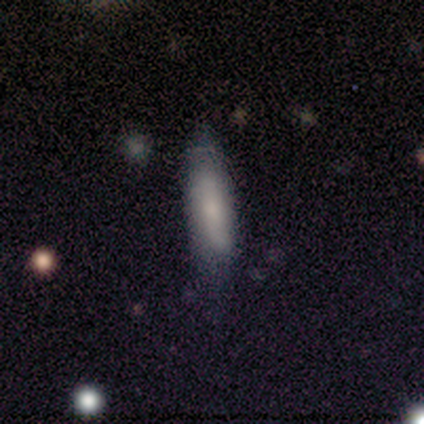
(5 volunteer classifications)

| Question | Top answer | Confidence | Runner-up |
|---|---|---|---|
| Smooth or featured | smooth | 80% | featured or disk (20%) |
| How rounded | in between | 50% | tied: cigar-shaped (50%) |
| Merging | none | 60% | minor disturbance (20%) |